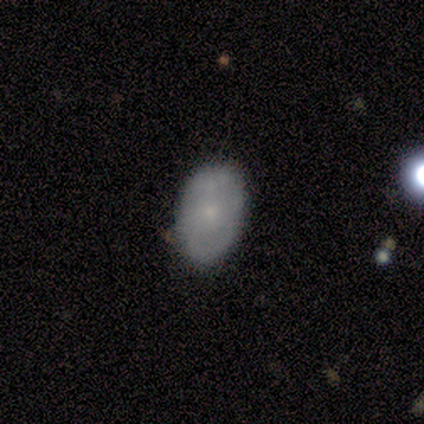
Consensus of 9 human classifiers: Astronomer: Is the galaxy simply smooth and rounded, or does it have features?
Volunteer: smooth — 89%.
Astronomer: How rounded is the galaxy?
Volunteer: in between — 100%.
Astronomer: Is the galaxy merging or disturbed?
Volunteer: none — 67%.